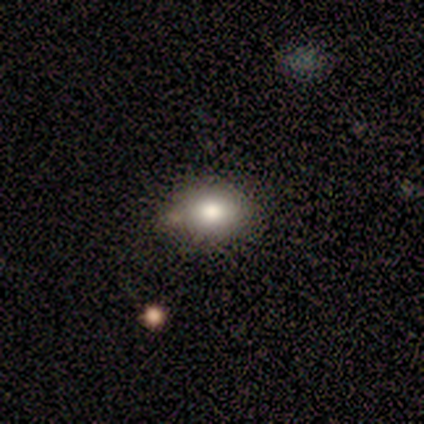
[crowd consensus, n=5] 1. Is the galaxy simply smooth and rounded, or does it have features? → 100% smooth, 0% featured or disk, 0% star or artifact.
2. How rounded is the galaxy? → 60% in between, 40% round, 0% cigar-shaped.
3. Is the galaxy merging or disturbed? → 40% none (tied), 40% major disturbance (tied), 20% minor disturbance, 0% merger.